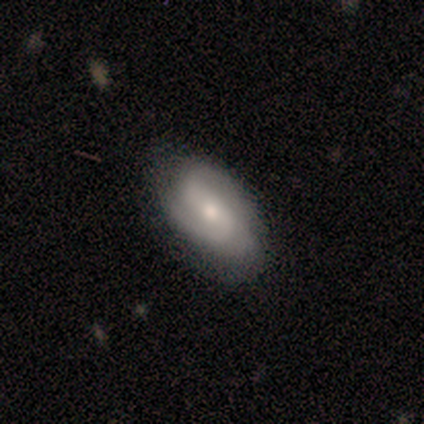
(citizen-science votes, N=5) smooth_or_featured: featured or disk (p=1.00)
disk_edge_on: no (p=1.00)
bar: no (p=0.80) [alt: strong p=0.20]
has_spiral_arms: yes (p=1.00)
spiral_winding: medium (p=0.80) [alt: loose p=0.20]
spiral_arm_count: 2 (p=0.40) [tied with: can't tell p=0.40]
bulge_size: small (p=0.60) [alt: moderate p=0.40]
merging: none (p=1.00)